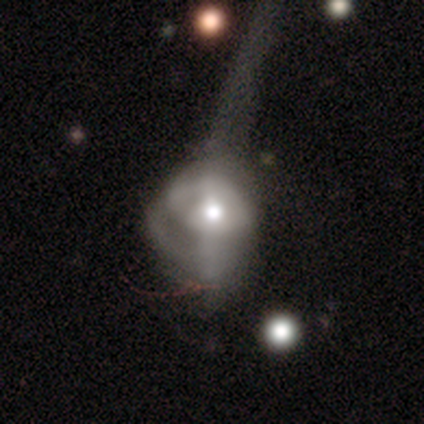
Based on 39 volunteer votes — Q: Smooth or featured?
A: featured or disk (67%); runner-up: smooth (28%)
Q: Edge-on disk?
A: no (96%); runner-up: yes (4%)
Q: Bar?
A: no (68%); runner-up: weak (28%)
Q: Spiral arms?
A: no (64%); runner-up: yes (36%)
Q: Bulge size?
A: moderate (88%); runner-up: small (8%)
Q: Merging?
A: major disturbance (41%); runner-up: merger (14%)